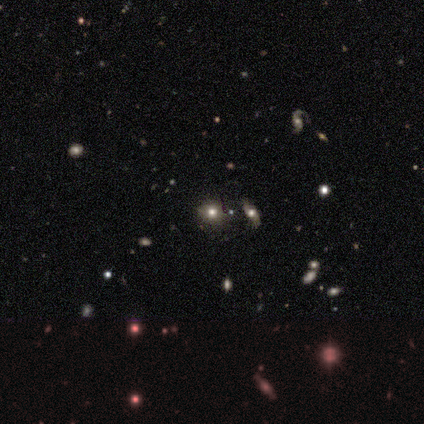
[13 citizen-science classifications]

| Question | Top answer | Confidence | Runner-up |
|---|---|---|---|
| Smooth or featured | smooth | 46% | tied: star or artifact (46%) |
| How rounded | round | 83% | in between (17%) |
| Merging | none | 71% | major disturbance (14%) |